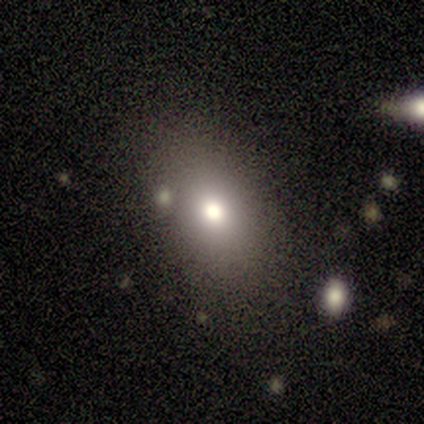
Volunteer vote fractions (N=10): A smooth galaxy with no disk features (90%) that is in between round and cigar-shaped (89%). Merging: none (78%).